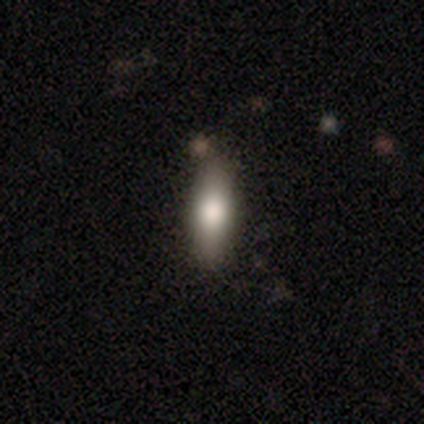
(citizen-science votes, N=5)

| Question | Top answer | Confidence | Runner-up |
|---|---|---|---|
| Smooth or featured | smooth | 80% | featured or disk (20%) |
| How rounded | cigar-shaped | 75% | in between (25%) |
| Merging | none | 80% | merger (20%) |